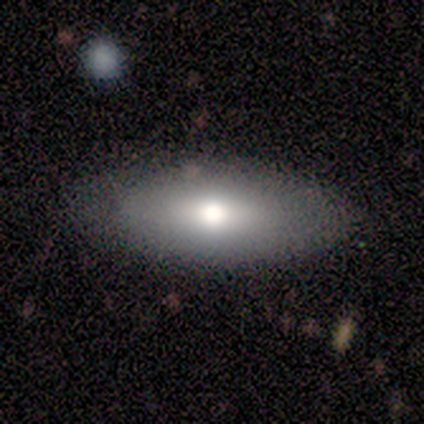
Smooth or featured?
  - smooth: 60% *
  - featured or disk: 40%
  - star or artifact: 0%
How rounded?
  - in between: 100% *
  - round: 0%
  - cigar-shaped: 0%
Merging?
  - none: 100% *
  - minor disturbance: 0%
  - major disturbance: 0%
  - merger: 0%